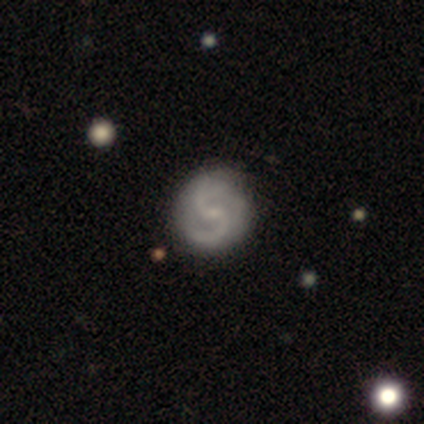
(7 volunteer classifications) Volunteers were most divided on "bar": weak: 67%, no: 33%, strong: 0%. More confident: edge-on disk — no (100%); spiral arm count — 2 (100%); bulge size — small (100%); smooth or featured — featured or disk (86%); spiral winding — medium (75%); merging — none (71%); spiral arms — yes (67%).